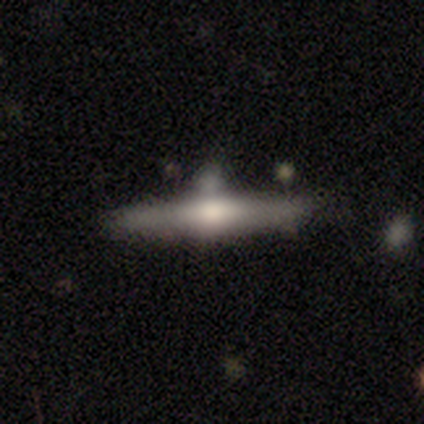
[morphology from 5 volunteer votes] featured or disk 60%, smooth 40%, star or artifact 0%. Down the decision tree: edge-on disk — yes (100%); edge-on bulge — rounded (100%); merging — none (40%, tied with minor disturbance).